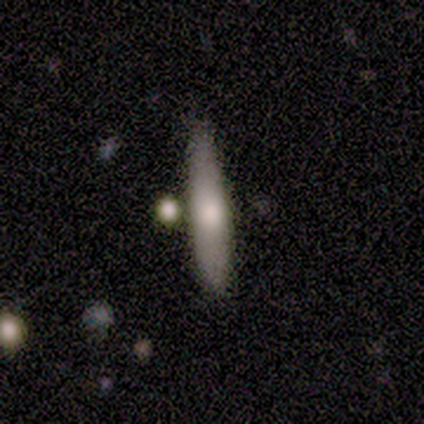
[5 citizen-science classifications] Morphology: type=smooth (60%); roundness=cigar-shaped (100%); merging=none (60%).